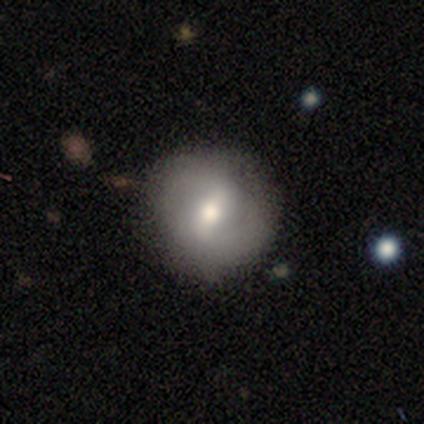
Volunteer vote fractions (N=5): featured or disk 80%, star or artifact 20%, smooth 0%. Down the decision tree: edge-on disk — no (100%); bar — no (50%); spiral arms — yes (75%); spiral arm count — 2 (100%); spiral winding — tight (33%, tied with medium and loose); bulge size — moderate (75%); merging — none (100%).